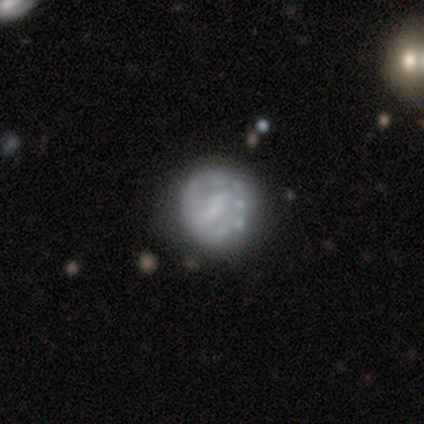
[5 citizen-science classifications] Smooth or featured? 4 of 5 (80%) said featured or disk. Edge-on disk? 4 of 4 (100%) said no. Bar? 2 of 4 (50%, tied with no) said weak. Spiral arms? 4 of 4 (100%) said no. Bulge size? 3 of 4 (75%) said none. Merging? 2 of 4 (50%, tied with minor disturbance) said none.